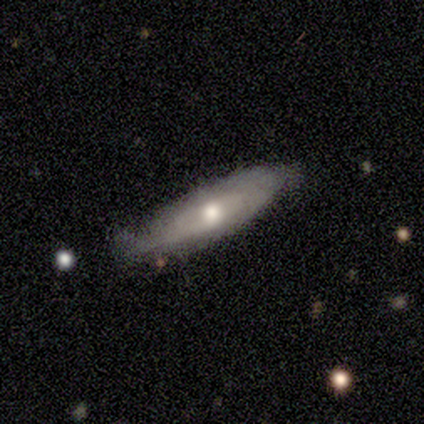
smooth_or_featured: smooth (p=0.60) [alt: featured or disk p=0.40]
how_rounded: cigar-shaped (p=1.00)
merging: none (p=0.40) [tied with: minor disturbance p=0.40]